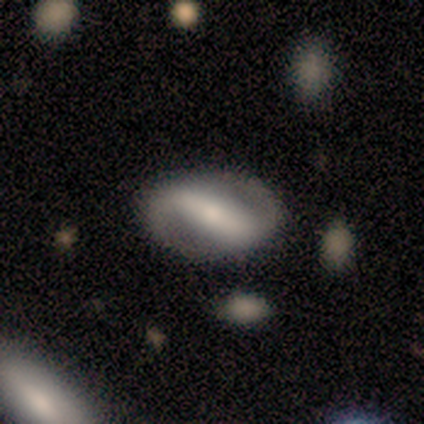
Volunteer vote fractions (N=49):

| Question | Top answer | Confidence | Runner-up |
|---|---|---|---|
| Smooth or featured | featured or disk | 80% | smooth (16%) |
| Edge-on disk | no | 95% | yes (5%) |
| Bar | strong | 78% | weak (14%) |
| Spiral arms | yes | 78% | no (22%) |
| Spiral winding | tight | 41% | loose (31%) |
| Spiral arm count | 2 | 100% | — |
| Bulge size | small | 43% | moderate (38%) |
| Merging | none | 74% | major disturbance (15%) |